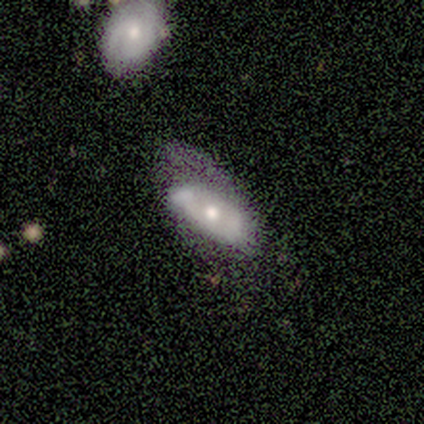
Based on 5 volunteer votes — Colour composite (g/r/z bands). It shows a featured or disk galaxy (60%) with no bar (67%), no spiral arms (67%) and a moderate central bulge (67%). Merging: none (40%).